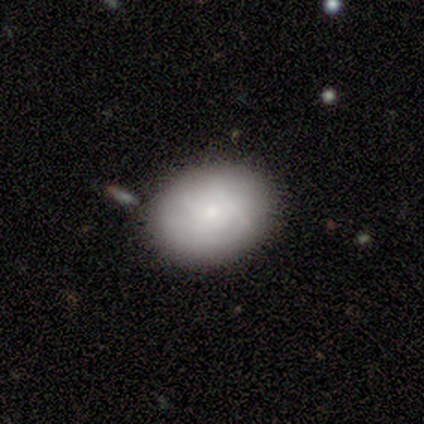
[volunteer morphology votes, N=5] Overall: smooth (40%, tied with featured or disk). How rounded: round (50%, tied with in between). Merging: none (50%; major disturbance 25%).